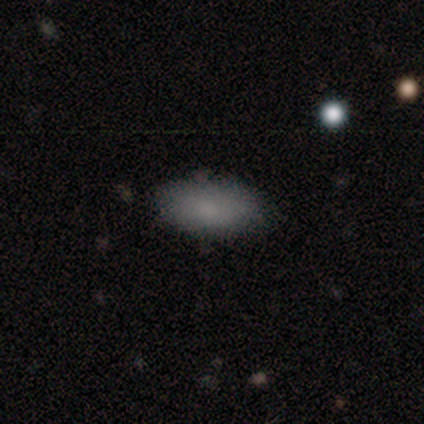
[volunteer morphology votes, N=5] This is clearly a smooth galaxy (100%). How rounded: clearly in between (80%). Merging: clearly none (100%).